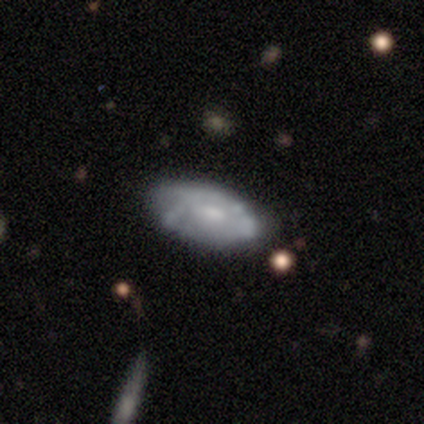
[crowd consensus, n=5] This is clearly a featured or disk galaxy (80%). It is possibly viewed edge-on (50%, tied with no). Edge-on bulge: clearly rounded (100%). Merging: likely none (60%).